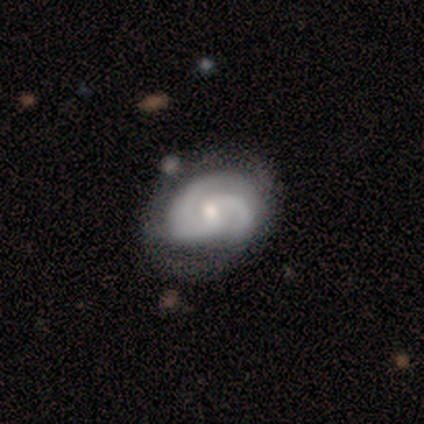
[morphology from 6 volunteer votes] Q: Smooth or featured?
A: featured or disk (83%); runner-up: smooth (17%)
Q: Edge-on disk?
A: no (100%)
Q: Bar?
A: no (60%); runner-up: weak (40%)
Q: Spiral arms?
A: yes (100%)
Q: Spiral winding?
A: medium (60%); runner-up: tight (20%)
Q: Spiral arm count?
A: 2 (80%); runner-up: 3 (20%)
Q: Bulge size?
A: large (40%); tied with: moderate (40%)
Q: Merging?
A: none (100%)